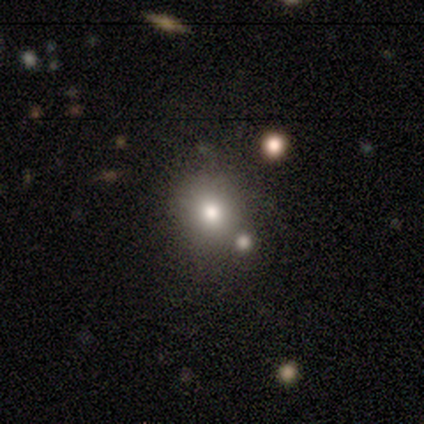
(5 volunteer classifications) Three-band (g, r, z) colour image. It shows a smooth galaxy with no disk features (80%) that is round (100%). Merging: none (60%).